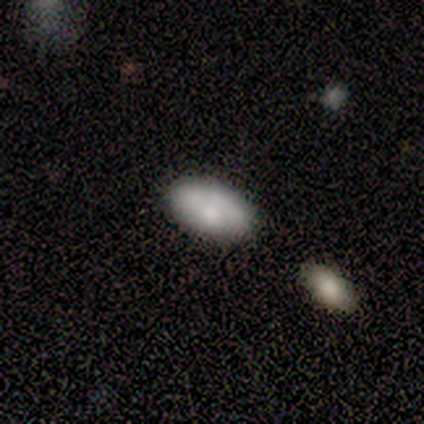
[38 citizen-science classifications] This appears to be a smooth galaxy with no disk features (74%) that is in between round and cigar-shaped (96%). Merging: none (61%).